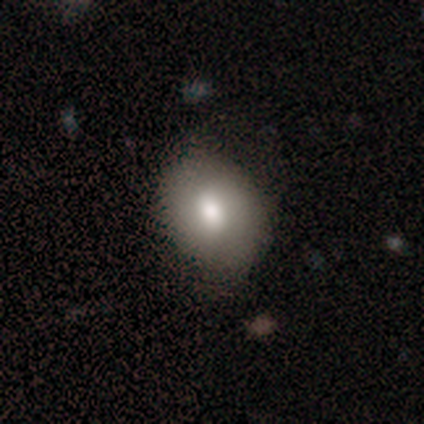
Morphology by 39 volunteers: A smooth galaxy with no disk features (77%) that is in between round and cigar-shaped (63%).

Vote fractions:
- Smooth or featured? smooth: 77% / featured or disk: 23% / star or artifact: 0%
- How rounded? in between: 63% / round: 37% / cigar-shaped: 0%
- Merging? none: 56% / minor disturbance: 5% / major disturbance: 3% / merger: 3%